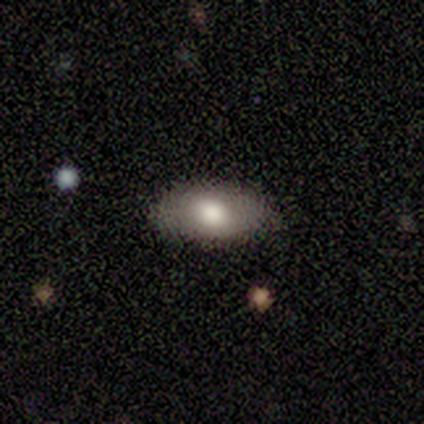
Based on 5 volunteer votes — smooth_or_featured: smooth (p=0.80) [alt: featured or disk p=0.20]
how_rounded: in between (p=0.75) [alt: round p=0.25]
merging: none (p=0.80) [alt: minor disturbance p=0.20]